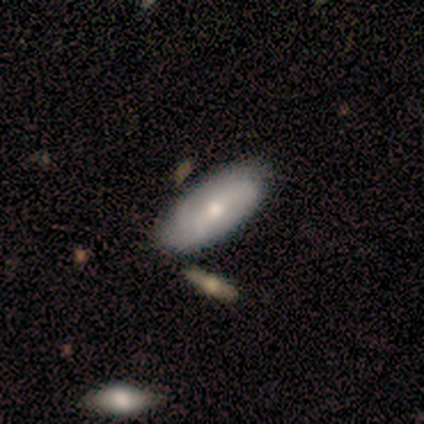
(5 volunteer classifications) This appears to be a smooth galaxy with no disk features (60%) that is in between round and cigar-shaped (100%). Merging: none (80%).